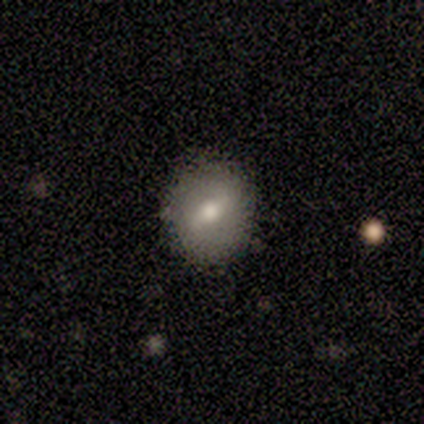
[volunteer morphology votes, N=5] This is likely a smooth galaxy (60%). How rounded: clearly round (100%). Merging: clearly none (80%).